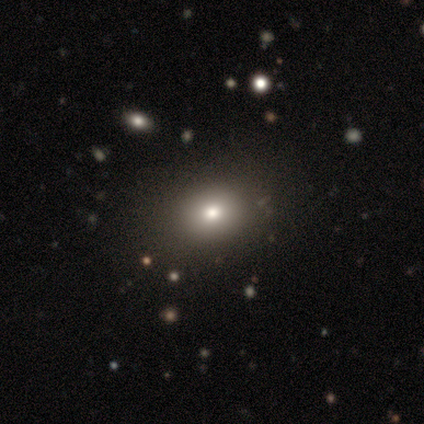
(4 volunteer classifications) Overall: smooth (50%, tied with star or artifact). How rounded: in between (100%). Merging: none (100%).